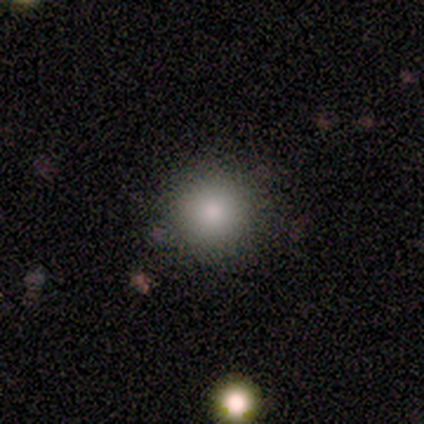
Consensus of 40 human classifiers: Q: Smooth or featured?
A: smooth (92%); runner-up: featured or disk (5%)
Q: How rounded?
A: round (92%); runner-up: in between (8%)
Q: Merging?
A: none (90%); runner-up: minor disturbance (5%)